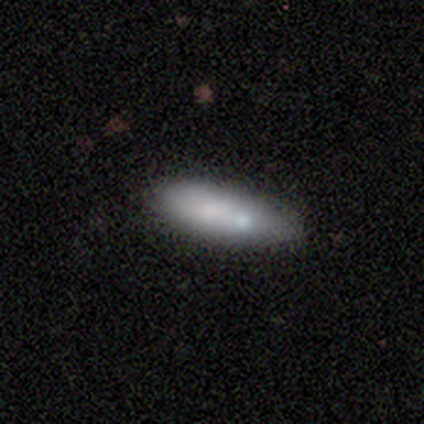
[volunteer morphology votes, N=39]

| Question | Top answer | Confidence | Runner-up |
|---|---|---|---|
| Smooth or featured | smooth | 77% | featured or disk (18%) |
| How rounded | cigar-shaped | 50% | in between (47%) |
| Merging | none | 51% | minor disturbance (30%) |